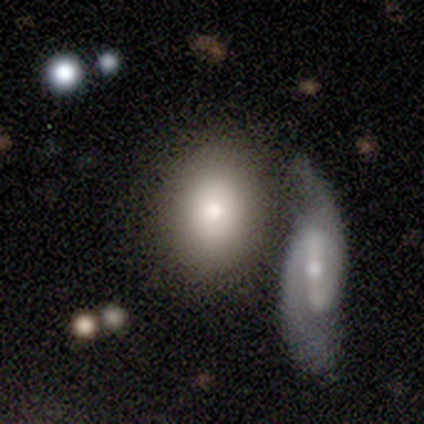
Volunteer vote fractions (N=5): Morphology: type=featured or disk (60%); edge-on=no (67%); bar=no (100%); spiral arms=no (100%); bulge=moderate (50%, tied with small); merging=merger (60%).